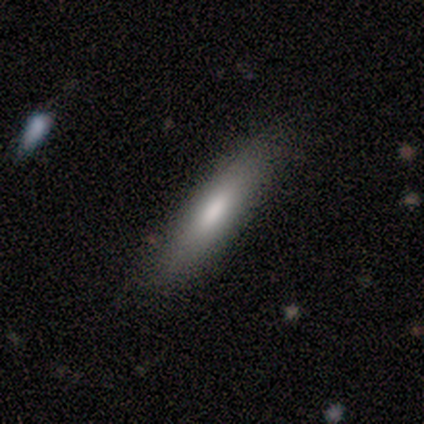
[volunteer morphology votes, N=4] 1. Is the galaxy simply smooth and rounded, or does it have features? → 75% smooth, 25% featured or disk, 0% star or artifact.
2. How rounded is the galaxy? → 67% cigar-shaped, 33% in between, 0% round.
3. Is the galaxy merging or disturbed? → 75% none, 25% minor disturbance, 0% major disturbance, 0% merger.